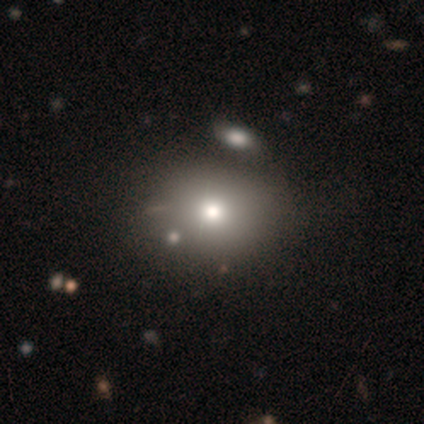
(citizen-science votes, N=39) smooth-or-featured: smooth: 69% | featured or disk: 15% | star or artifact: 15%
  how-rounded: round: 59% | in between: 41% | cigar-shaped: 0%
  merging: none: 48% | merger: 27% | minor disturbance: 3% | major disturbance: 3%